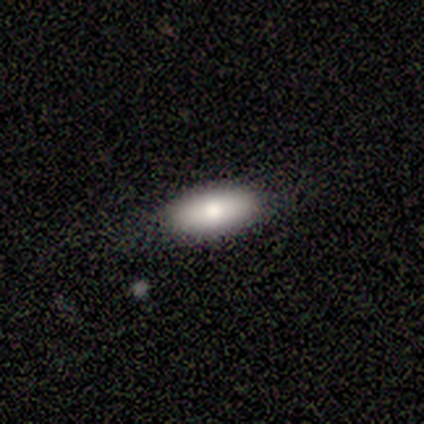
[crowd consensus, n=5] A smooth galaxy with no disk features (60%) that is in between round and cigar-shaped (100%).

Vote fractions:
- Smooth or featured? smooth: 60% / featured or disk: 40% / star or artifact: 0%
- How rounded? in between: 100% / round: 0% / cigar-shaped: 0%
- Merging? none: 100% / minor disturbance: 0% / major disturbance: 0% / merger: 0%